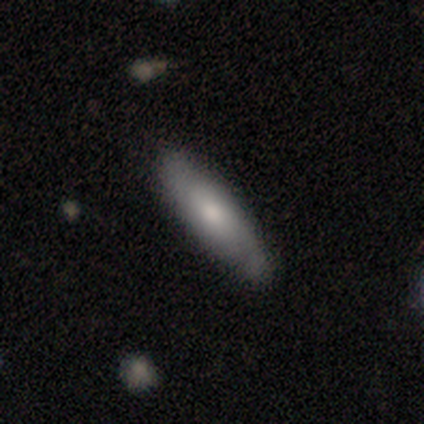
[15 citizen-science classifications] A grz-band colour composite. It shows a smooth galaxy with no disk features (60%) that is cigar-shaped (67%). Merging: none (73%).